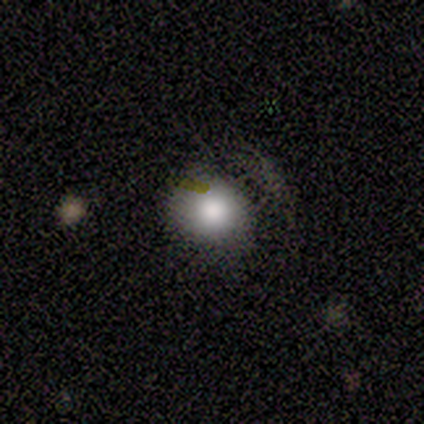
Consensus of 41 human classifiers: Smooth or featured?
  - smooth: 76% *
  - star or artifact: 17%
  - featured or disk: 7%
How rounded?
  - round: 81% *
  - in between: 19%
  - cigar-shaped: 0%
Merging?
  - none: 47% *
  - minor disturbance: 15%
  - major disturbance: 6%
  - merger: 0%